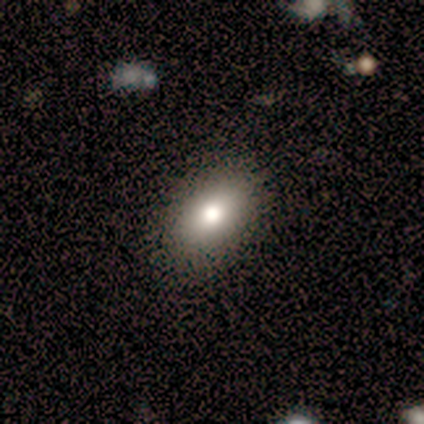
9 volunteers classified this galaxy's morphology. Smooth or featured? 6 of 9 (67%) said smooth. How rounded? 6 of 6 (100%) said in between. Merging? 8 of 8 (100%) said none.